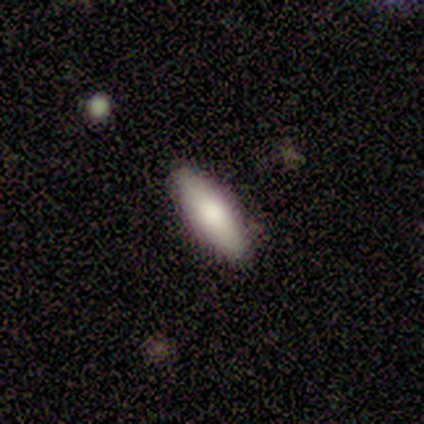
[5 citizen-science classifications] A smooth galaxy with no disk features (60%) that is in between round and cigar-shaped (67%). Merging: none (50%).